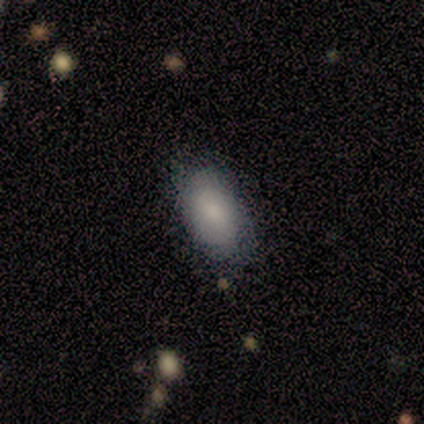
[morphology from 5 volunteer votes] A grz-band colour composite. It shows a smooth galaxy with no disk features (80%) that is in between round and cigar-shaped (100%). Merging: none (60%).